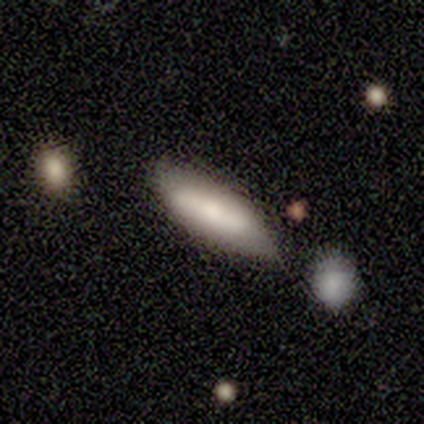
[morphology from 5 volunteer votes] Volunteers were most divided on "how rounded": in between: 60%, cigar-shaped: 40%, round: 0%. More confident: smooth or featured — smooth (100%); merging — none (60%).